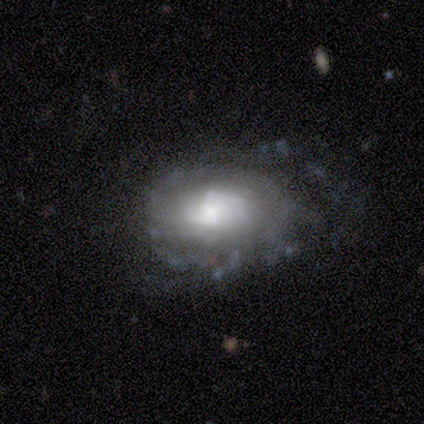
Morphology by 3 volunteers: Smooth or featured: featured or disk — 67% (smooth — 33%)
Edge-on disk: no — 100%
Bar: weak — 50% (tied with no — 50%)
Spiral arms: yes — 50% (tied with no — 50%)
Spiral winding: medium — 100%
Spiral arm count: more than 4 — 100%
Bulge size: large — 100%
Merging: none — 33% (tied with minor disturbance — 33%; major disturbance — 33%)